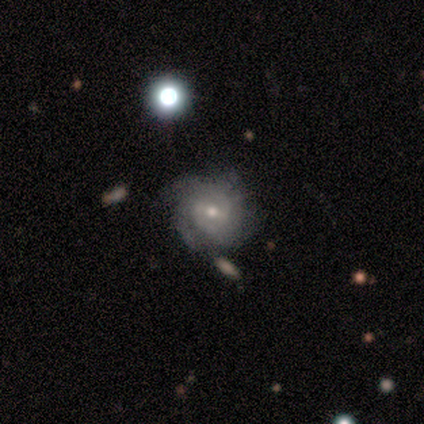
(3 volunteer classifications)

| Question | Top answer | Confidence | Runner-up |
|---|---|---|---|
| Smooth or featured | featured or disk | 67% | smooth (33%) |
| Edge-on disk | no | 100% | — |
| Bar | weak | 100% | — |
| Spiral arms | yes | 100% | — |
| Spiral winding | tight | 50% | tied: loose (50%) |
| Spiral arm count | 2 | 50% | tied: 4 (50%) |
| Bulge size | large | 50% | tied: small (50%) |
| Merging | minor disturbance | 67% | none (33%) |